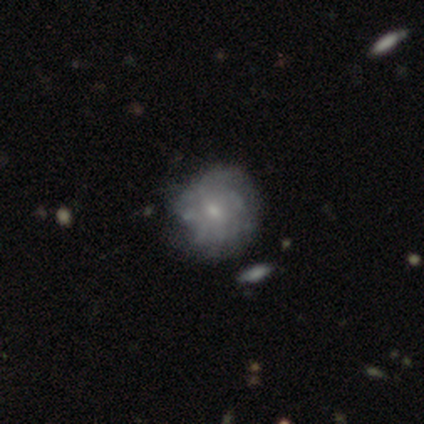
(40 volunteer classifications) A featured or disk galaxy (75%) with no bar (70%), tight (56%) spiral arms (60%) and a small central bulge (57%).

Vote fractions:
- Smooth or featured? featured or disk: 75% / smooth: 20% / star or artifact: 5%
- Edge-on disk? no: 100% / yes: 0%
- Bar? no: 70% / weak: 27% / strong: 3%
- Spiral arms? yes: 60% / no: 40%
- Spiral winding? tight: 56% / medium: 28% / loose: 17%
- Spiral arm count? can't tell: 67% / more than 4: 22% / 2: 11% / 1: 0% / 3: 0% / 4: 0%
- Bulge size? small: 57% / moderate: 37% / large: 3% / none: 3% / dominant: 0%
- Merging? none: 45% / minor disturbance: 18% / major disturbance: 8% / merger: 5%